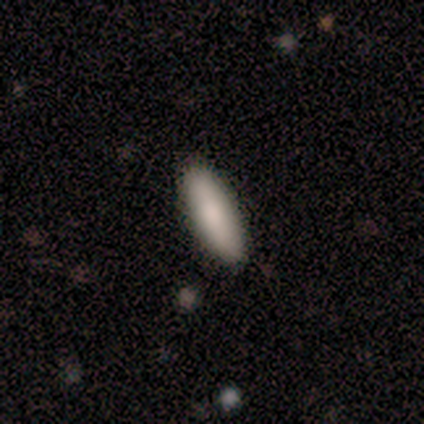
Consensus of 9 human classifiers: smooth_or_featured: smooth (p=1.00)
how_rounded: in between (p=0.56) [alt: cigar-shaped p=0.44]
merging: none (p=1.00)